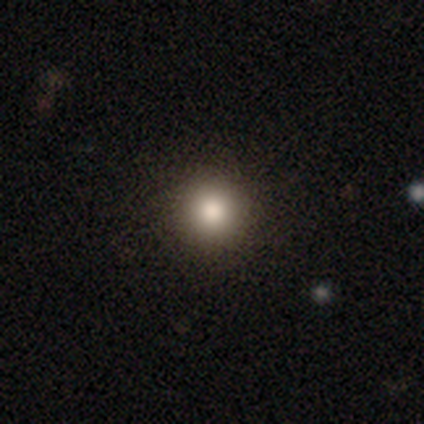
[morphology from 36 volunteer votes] type=smooth (81%); roundness=round (100%); merging=none (90%).